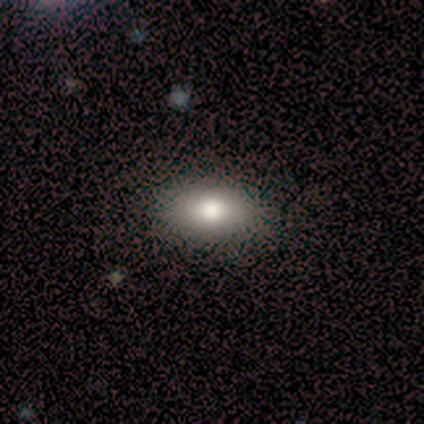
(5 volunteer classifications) smooth 100%, featured or disk 0%, star or artifact 0%. Down the decision tree: how rounded — in between (100%); merging — none (100%).